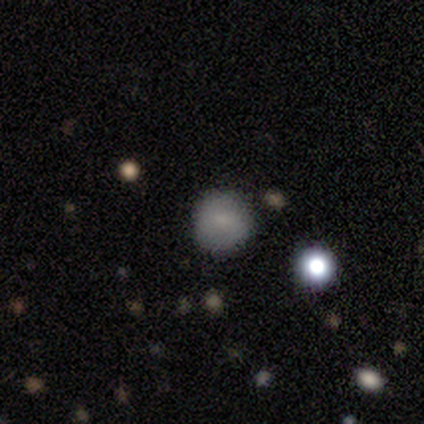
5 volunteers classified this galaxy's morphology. smooth 80%, star or artifact 20%, featured or disk 0%. Down the decision tree: how rounded — round (100%); merging — none (100%).